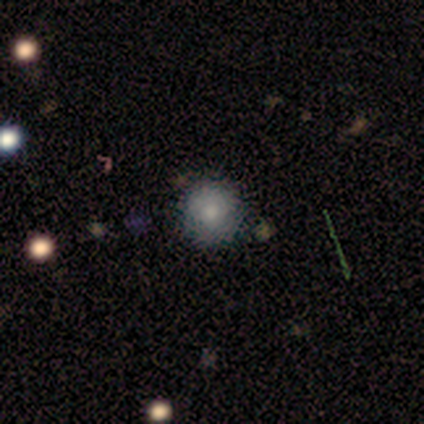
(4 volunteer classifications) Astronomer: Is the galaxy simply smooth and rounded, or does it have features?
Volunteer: smooth — 50%, tied with star or artifact at 50%.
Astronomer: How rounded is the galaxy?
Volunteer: round — 100%.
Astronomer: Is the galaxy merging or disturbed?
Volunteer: none — 50%, tied with minor disturbance at 50%.